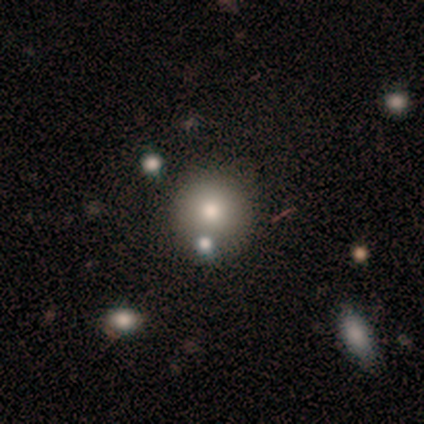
smooth_or_featured: smooth (p=0.82) [alt: star or artifact p=0.18]
how_rounded: round (p=1.00)
merging: none (p=0.89) [alt: merger p=0.11]